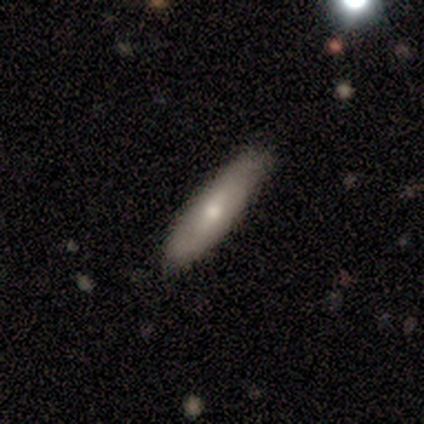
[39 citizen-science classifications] Smooth or featured: smooth — 59% (featured or disk — 36%)
How rounded: cigar-shaped — 70% (in between — 17%)
Merging: none — 81% (minor disturbance — 11%)